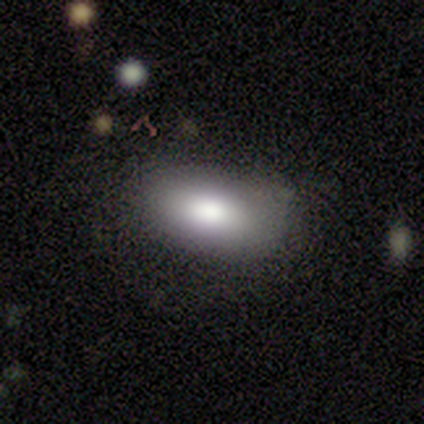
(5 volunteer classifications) Q: Smooth or featured?
A: smooth (100%)
Q: How rounded?
A: in between (100%)
Q: Merging?
A: none (100%)